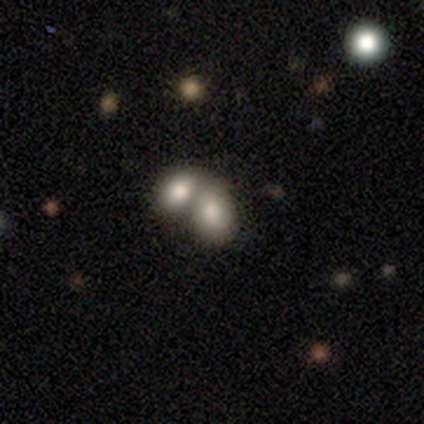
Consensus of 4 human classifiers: Smooth or featured? 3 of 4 (75%) said smooth. How rounded? 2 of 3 (67%) said in between. Merging? 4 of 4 (100%) said merger.